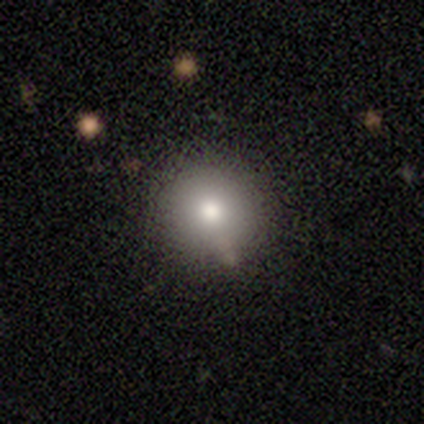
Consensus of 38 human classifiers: Smooth or featured?
  - smooth: 79% *
  - star or artifact: 16%
  - featured or disk: 5%
How rounded?
  - round: 93% *
  - in between: 7%
  - cigar-shaped: 0%
Merging?
  - none: 72% *
  - minor disturbance: 19%
  - merger: 9%
  - major disturbance: 0%